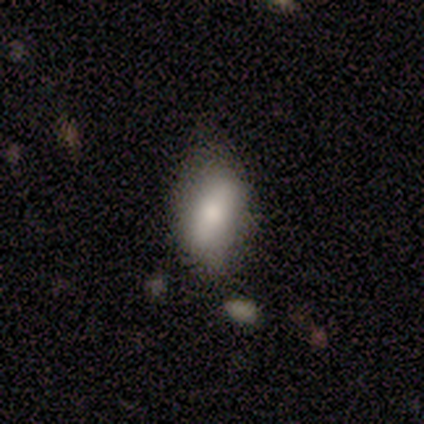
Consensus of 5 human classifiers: Smooth or featured?
  - smooth: 100% *
  - featured or disk: 0%
  - star or artifact: 0%
How rounded?
  - in between: 100% *
  - round: 0%
  - cigar-shaped: 0%
Merging?
  - none: 80% *
  - minor disturbance: 20%
  - major disturbance: 0%
  - merger: 0%